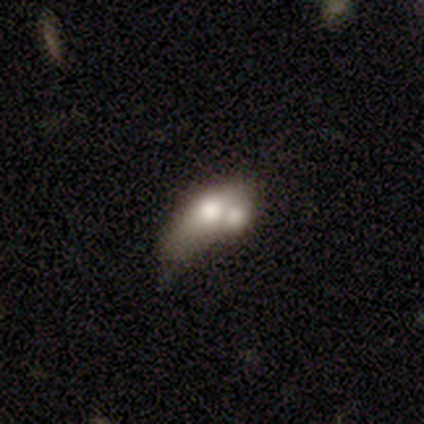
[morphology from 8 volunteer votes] smooth-or-featured: smooth: 75% | featured or disk: 12% | star or artifact: 12%
  how-rounded: in between: 83% | cigar-shaped: 17% | round: 0%
  merging: merger: 71% | minor disturbance: 14% | major disturbance: 14% | none: 0%